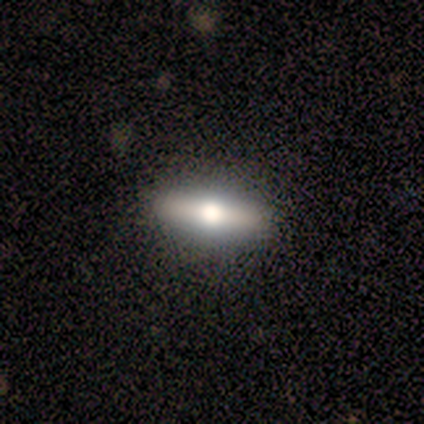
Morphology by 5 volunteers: Volunteers were most divided on "smooth or featured": featured or disk: 60%, smooth: 40%, star or artifact: 0%. More confident: edge-on bulge — rounded (100%); merging — none (100%); edge-on disk — yes (67%).